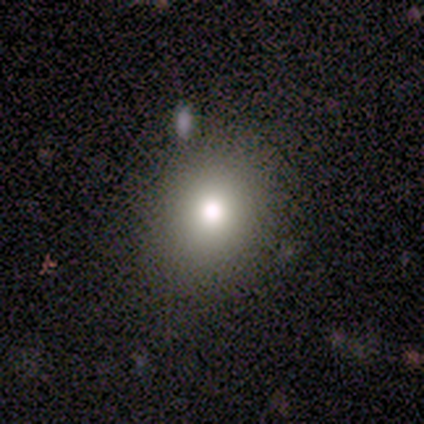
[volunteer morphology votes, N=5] smooth 80%, star or artifact 20%, featured or disk 0%. Down the decision tree: how rounded — round (75%); merging — none (100%).